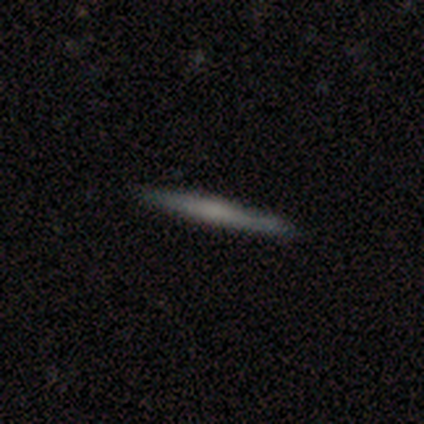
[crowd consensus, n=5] A smooth galaxy with no disk features (80%) that is cigar-shaped (100%).

Vote fractions:
- Smooth or featured? smooth: 80% / featured or disk: 20% / star or artifact: 0%
- How rounded? cigar-shaped: 100% / round: 0% / in between: 0%
- Merging? none: 100% / minor disturbance: 0% / major disturbance: 0% / merger: 0%